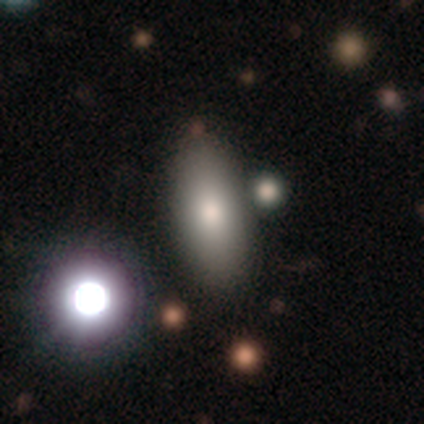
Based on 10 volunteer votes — smooth 70%, featured or disk 20%, star or artifact 10%. Down the decision tree: how rounded — in between (57%); merging — none (78%).